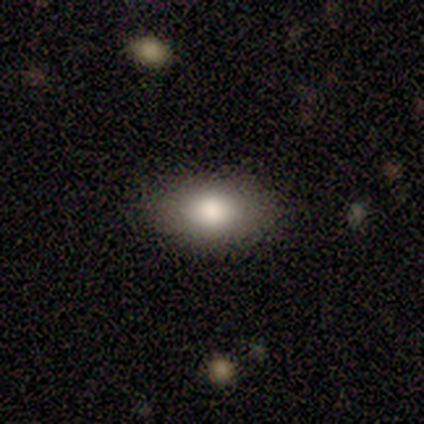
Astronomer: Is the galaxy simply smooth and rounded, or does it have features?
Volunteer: smooth — 60% (runner-up: featured or disk, 40%).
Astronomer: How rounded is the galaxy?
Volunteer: in between — 100%.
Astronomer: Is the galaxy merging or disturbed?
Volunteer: none — 100%.